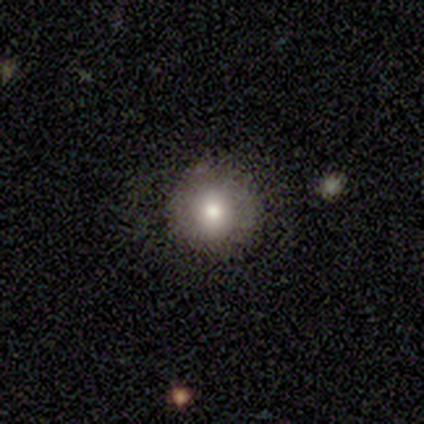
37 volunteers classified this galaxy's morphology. smooth-or-featured: smooth: 65% | featured or disk: 24% | star or artifact: 11%
  how-rounded: round: 88% | in between: 12% | cigar-shaped: 0%
  merging: none: 82% | major disturbance: 9% | merger: 6% | minor disturbance: 3%